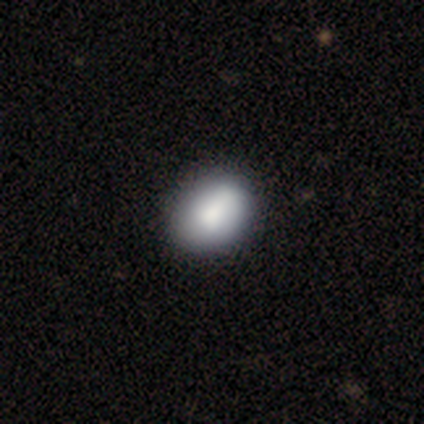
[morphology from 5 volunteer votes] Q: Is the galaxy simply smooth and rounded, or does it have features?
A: smooth — 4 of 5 (80%).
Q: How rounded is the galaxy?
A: round — 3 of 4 (75%).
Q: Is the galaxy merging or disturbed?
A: minor disturbance — 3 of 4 (75%).